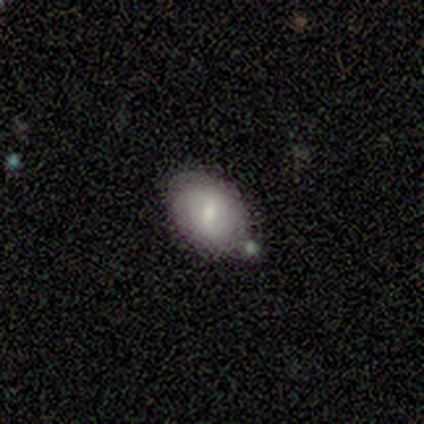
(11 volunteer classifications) Morphology: type=smooth (82%); roundness=in between (100%); merging=none (90%).